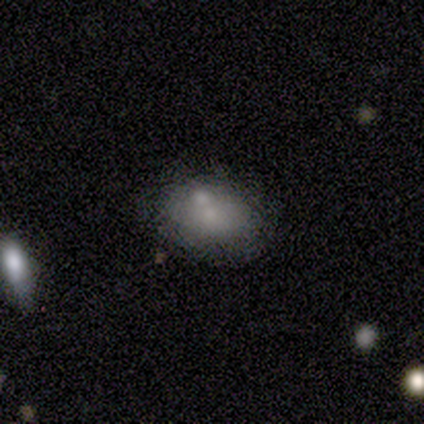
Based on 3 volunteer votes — smooth-or-featured: smooth: 100% | featured or disk: 0% | star or artifact: 0%
  how-rounded: in between: 100% | round: 0% | cigar-shaped: 0%
  merging: none: 100% | minor disturbance: 0% | major disturbance: 0% | merger: 0%